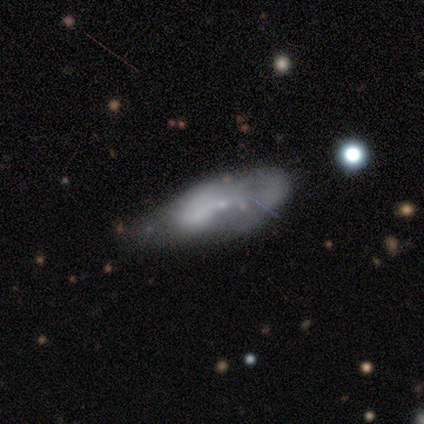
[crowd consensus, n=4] This is likely a smooth galaxy (75%). How rounded: clearly in between (100%). Merging: likely none (75%).